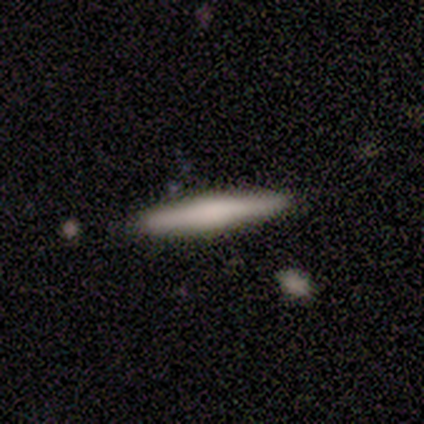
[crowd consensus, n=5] smooth_or_featured: featured or disk (p=0.60) [alt: smooth p=0.40]
disk_edge_on: yes (p=1.00)
edge_on_bulge: boxy (p=0.33) [tied with: none p=0.33, rounded p=0.33]
merging: none (p=1.00)